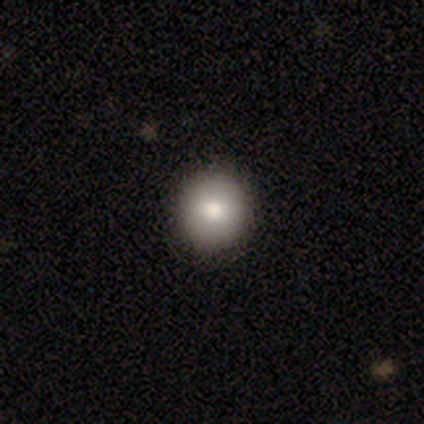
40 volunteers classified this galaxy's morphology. smooth 88%, featured or disk 10%, star or artifact 2%. Down the decision tree: how rounded — round (97%); merging — none (72%).